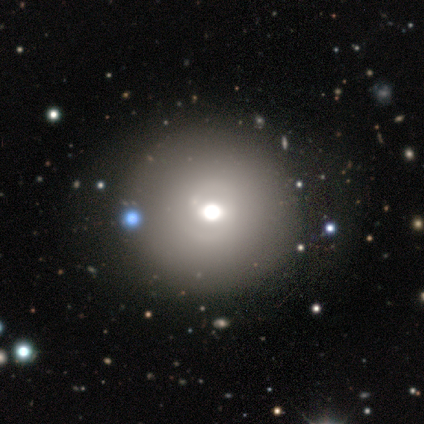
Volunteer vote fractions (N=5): Smooth or featured: smooth — 60% (featured or disk — 40%)
How rounded: round — 100%
Merging: none — 60% (major disturbance — 20%)